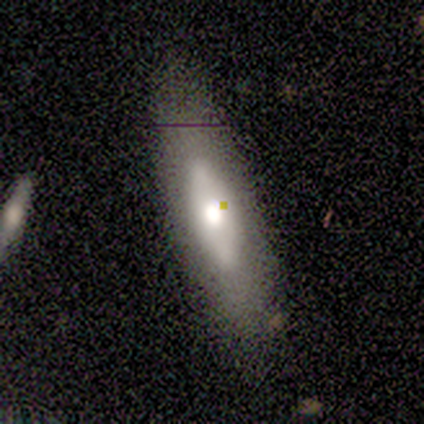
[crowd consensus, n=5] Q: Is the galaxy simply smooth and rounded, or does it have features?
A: featured or disk — 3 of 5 (60%).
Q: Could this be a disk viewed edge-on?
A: no — 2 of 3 (67%).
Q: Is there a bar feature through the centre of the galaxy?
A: no — 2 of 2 (100%).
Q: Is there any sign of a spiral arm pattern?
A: no — 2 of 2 (100%).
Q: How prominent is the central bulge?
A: moderate — 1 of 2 (50%, tied with small).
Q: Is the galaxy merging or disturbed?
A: none — 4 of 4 (100%).